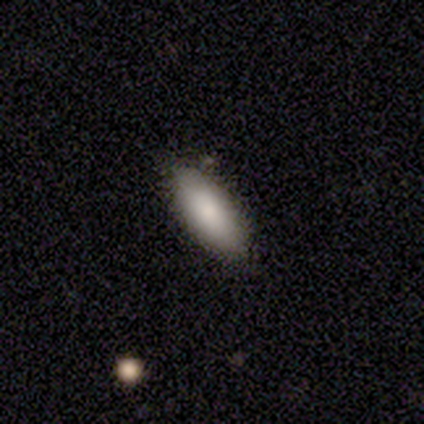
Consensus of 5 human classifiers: This is clearly a smooth galaxy (100%). How rounded: clearly in between (100%). Merging: clearly none (100%).